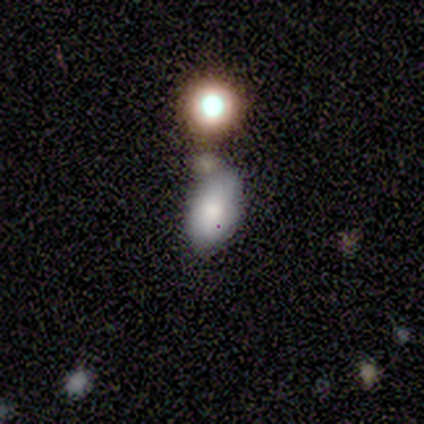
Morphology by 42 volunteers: smooth_or_featured: smooth (p=0.76) [alt: featured or disk p=0.21]
how_rounded: in between (p=0.91) [alt: round p=0.09]
merging: none (p=0.39) [alt: minor disturbance p=0.37]